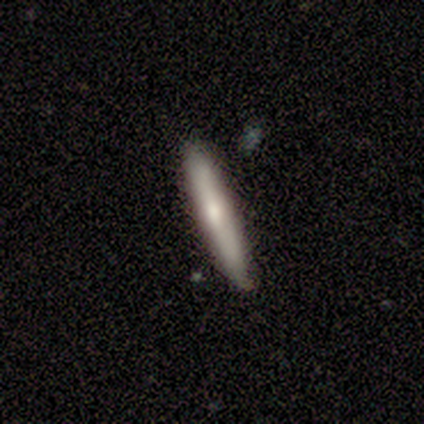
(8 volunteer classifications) Smooth or featured: smooth — 50% (featured or disk — 38%)
How rounded: cigar-shaped — 75% (in between — 25%)
Merging: none — 71% (minor disturbance — 29%)